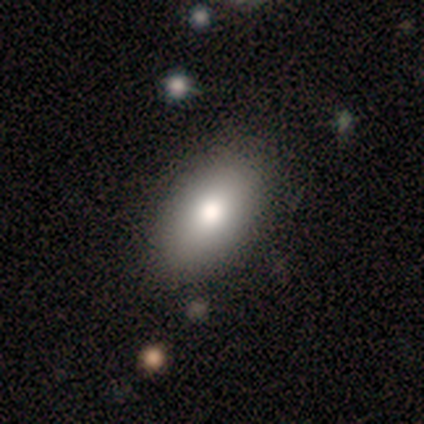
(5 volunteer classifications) Volunteers were most divided on "smooth or featured": smooth: 80%, star or artifact: 20%, featured or disk: 0%. More confident: how rounded — in between (100%); merging — none (100%).